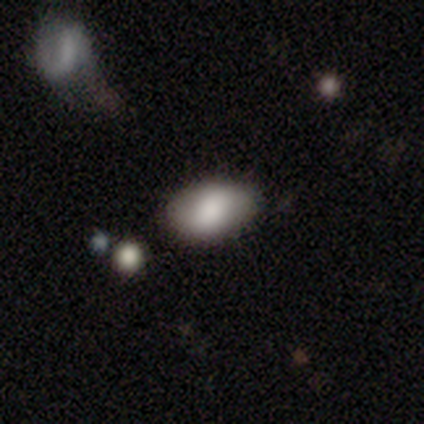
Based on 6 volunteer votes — smooth-or-featured: smooth: 50% | star or artifact: 33% | featured or disk: 17%
  how-rounded: in between: 100% | round: 0% | cigar-shaped: 0%
  merging: none: 75% | minor disturbance: 25% | major disturbance: 0% | merger: 0%